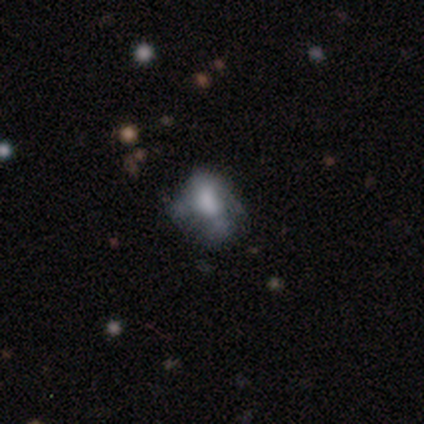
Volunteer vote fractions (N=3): Smooth or featured? smooth (67%)
How rounded? round (50%, tied with in between)
Merging? none (67%)